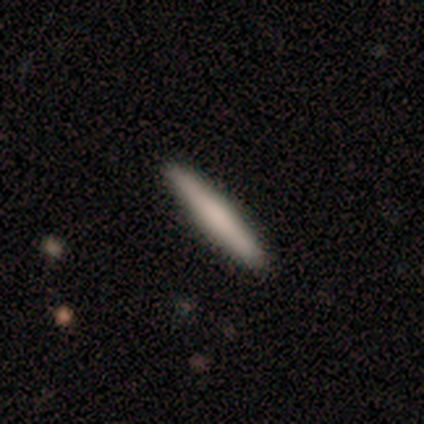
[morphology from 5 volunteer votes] type=smooth (80%); roundness=cigar-shaped (75%); merging=none (60%).